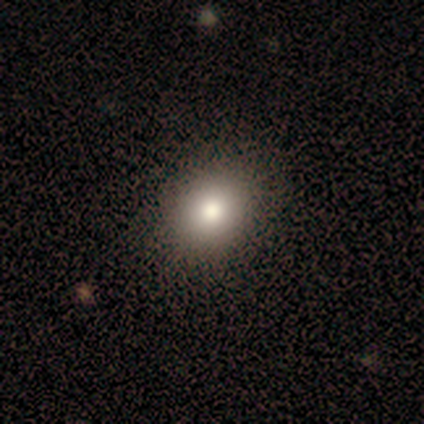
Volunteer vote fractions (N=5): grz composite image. It shows a smooth galaxy with no disk features (100%) that is round (60%). Merging: none (100%).